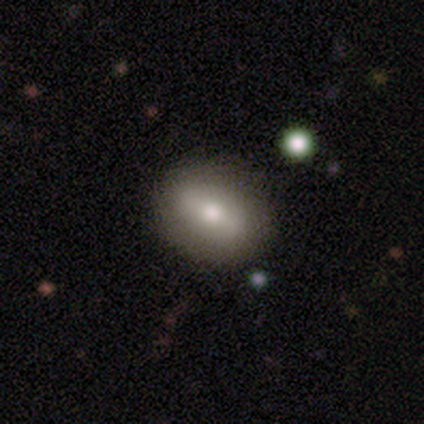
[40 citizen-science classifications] A smooth galaxy with no disk features (75%) that is in between round and cigar-shaped (77%). Merging: none (58%).